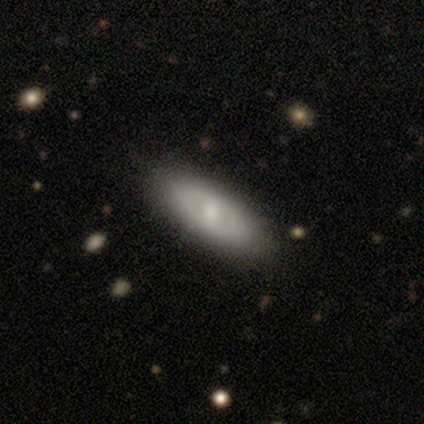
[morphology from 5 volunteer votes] This is likely a featured or disk galaxy (60%). It is likely not viewed edge-on (67%). Bar: clearly no (100%). Spiral arm pattern: clearly no (100%). Central bulge: possibly moderate (50%, tied with small). Merging: clearly none (80%).